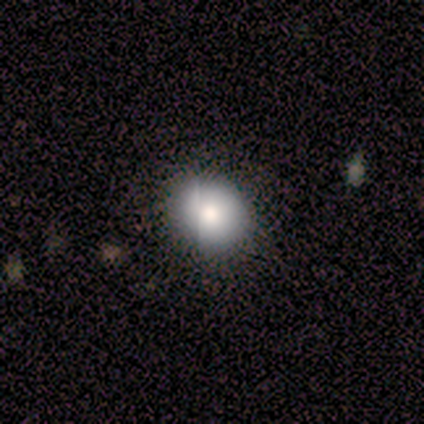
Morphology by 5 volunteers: A smooth galaxy with no disk features (60%) that is round (67%). Merging: none (100%).